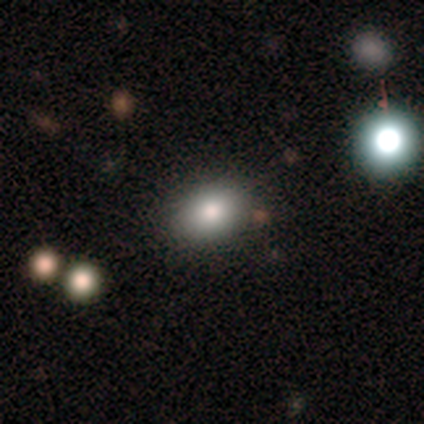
smooth_or_featured: smooth (p=1.00)
how_rounded: in between (p=0.67) [alt: round p=0.33]
merging: none (p=1.00)